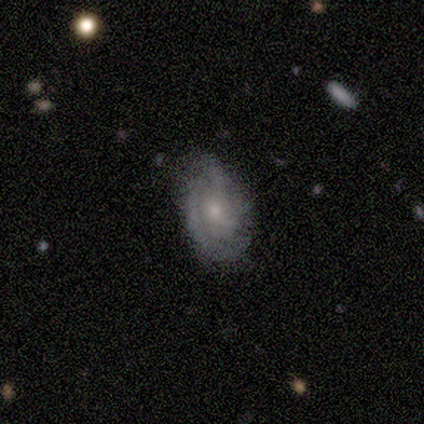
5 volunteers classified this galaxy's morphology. Overall: featured or disk (80%). Edge-on disk: no (100%). Bar: no (75%). Spiral arms: yes (100%). Spiral arm count: 3 (75%). Spiral winding: tight (50%, tied with medium). Bulge size: small (75%). Merging: none (80%).